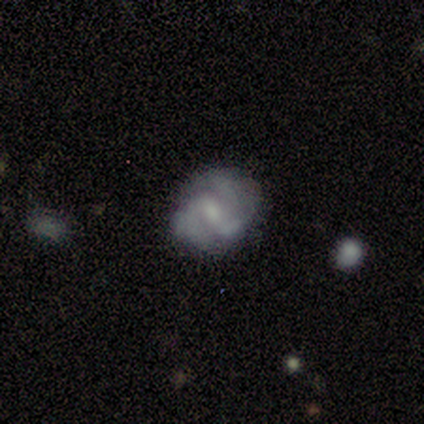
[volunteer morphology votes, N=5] Smooth or featured? featured or disk (60%)
Edge-on disk? no (100%)
Bar? weak (100%)
Spiral arms? yes (100%)
Spiral winding? medium (67%)
Spiral arm count? 3 (100%)
Bulge size? moderate (100%)
Merging? none (60%)